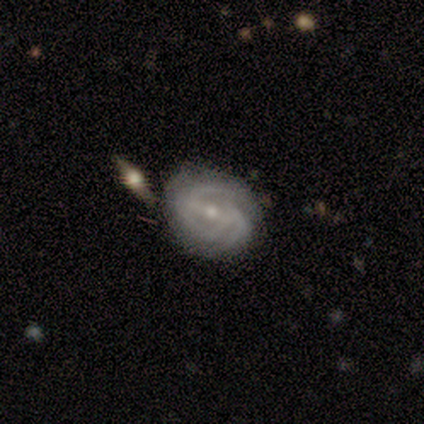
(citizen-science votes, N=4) Smooth or featured?
  - featured or disk: 100% *
  - smooth: 0%
  - star or artifact: 0%
Edge-on disk?
  - no: 100% *
  - yes: 0%
Bar?
  - weak: 50% * (tied)
  - no: 50% * (tied)
  - strong: 0%
Spiral arms?
  - yes: 75% *
  - no: 25%
Spiral winding?
  - tight: 100% *
  - medium: 0%
  - loose: 0%
Spiral arm count?
  - 2: 33% * (tied)
  - 3: 33% * (tied)
  - 4: 33% * (tied)
  - 1: 0%
  - more than 4: 0%
  - can't tell: 0%
Bulge size?
  - small: 75% *
  - none: 25%
  - dominant: 0%
  - large: 0%
  - moderate: 0%
Merging?
  - minor disturbance: 50% *
  - major disturbance: 25%
  - merger: 25%
  - none: 0%